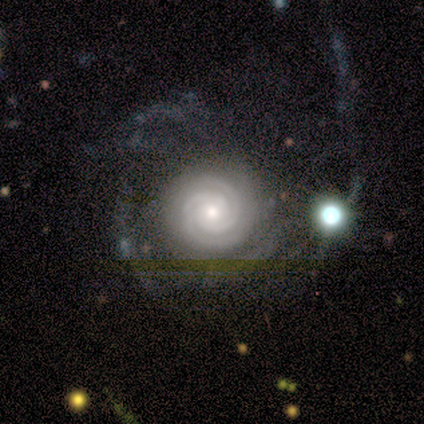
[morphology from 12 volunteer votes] A featured or disk galaxy (92%) with no bar (64%), 2 (64%) tight (100%) spiral arms (100%) and a moderate central bulge (45%).

Vote fractions:
- Smooth or featured? featured or disk: 92% / star or artifact: 8% / smooth: 0%
- Edge-on disk? no: 100% / yes: 0%
- Bar? no: 64% / strong: 18% / weak: 18%
- Spiral arms? yes: 100% / no: 0%
- Spiral winding? tight: 100% / medium: 0% / loose: 0%
- Spiral arm count? 2: 64% / 4: 18% / 3: 9% / can't tell: 9% / 1: 0% / more than 4: 0%
- Bulge size? moderate: 45% / small: 36% / large: 18% / dominant: 0% / none: 0%
- Merging? major disturbance: 45% / none: 36% / minor disturbance: 9% / merger: 9%